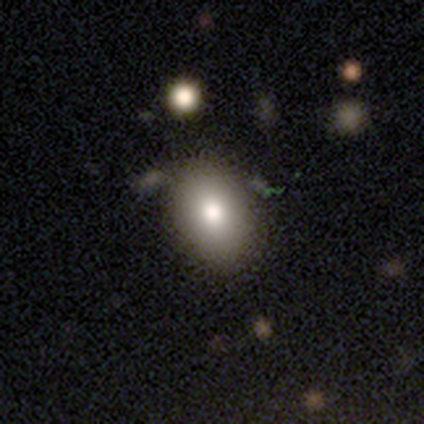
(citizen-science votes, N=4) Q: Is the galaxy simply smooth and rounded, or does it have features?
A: smooth — 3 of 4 (75%).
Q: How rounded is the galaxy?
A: in between — 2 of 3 (67%).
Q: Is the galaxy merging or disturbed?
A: none — 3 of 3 (100%).